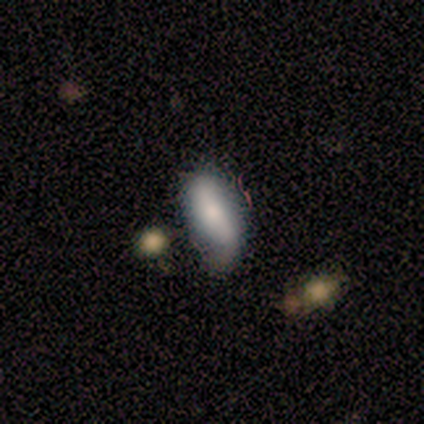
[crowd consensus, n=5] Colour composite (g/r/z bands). It shows a smooth galaxy with no disk features (60%) that is in between round and cigar-shaped (100%). Merging: none (40%, tied with minor disturbance).